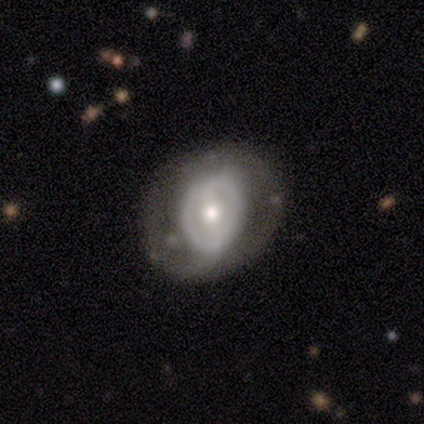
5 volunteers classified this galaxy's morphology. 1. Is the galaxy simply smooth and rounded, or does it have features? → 80% featured or disk, 20% star or artifact, 0% smooth.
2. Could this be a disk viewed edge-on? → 100% no, 0% yes.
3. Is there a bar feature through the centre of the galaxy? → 75% weak, 25% strong, 0% no.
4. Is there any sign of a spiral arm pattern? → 75% no, 25% yes.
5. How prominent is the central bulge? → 75% moderate, 25% large, 0% dominant, 0% small, 0% none.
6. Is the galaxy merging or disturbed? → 75% none, 25% minor disturbance, 0% major disturbance, 0% merger.